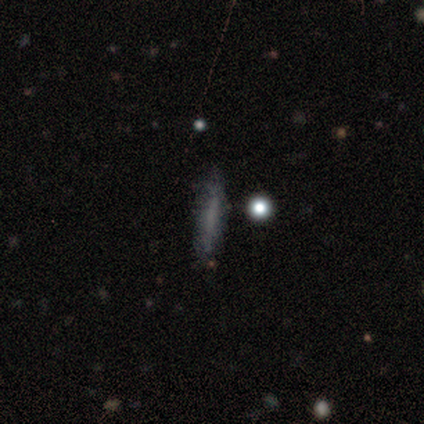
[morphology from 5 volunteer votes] Q: Smooth or featured?
A: smooth (60%); runner-up: featured or disk (40%)
Q: How rounded?
A: cigar-shaped (100%)
Q: Merging?
A: none (60%); runner-up: merger (40%)